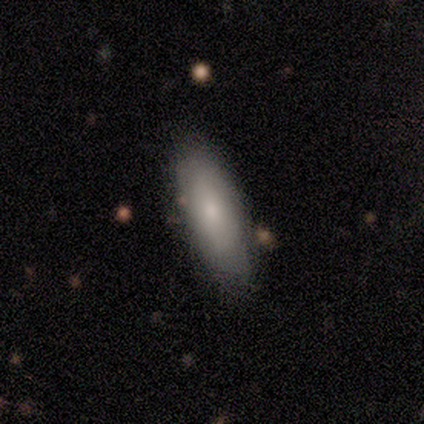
A smooth galaxy with no disk features (60%) that is in between round and cigar-shaped (67%).

Vote fractions:
- Smooth or featured? smooth: 60% / star or artifact: 40% / featured or disk: 0%
- How rounded? in between: 67% / cigar-shaped: 33% / round: 0%
- Merging? minor disturbance: 67% / none: 33% / major disturbance: 0% / merger: 0%